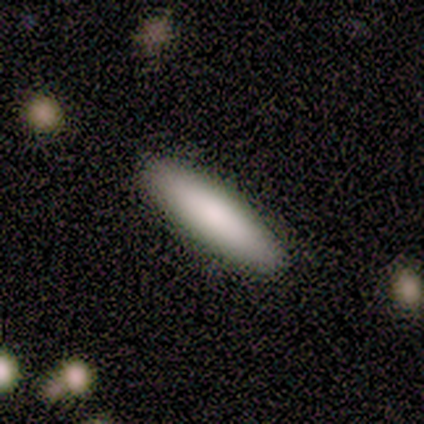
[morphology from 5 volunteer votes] smooth 80%, featured or disk 20%, star or artifact 0%. Down the decision tree: how rounded — cigar-shaped (75%); merging — none (100%).